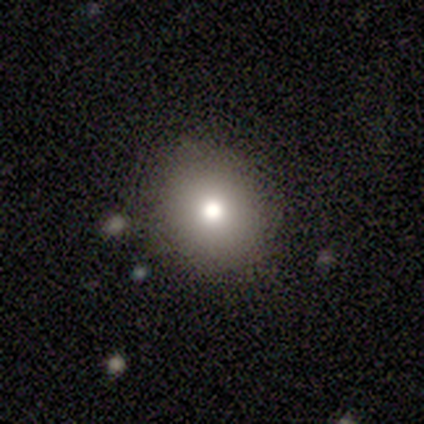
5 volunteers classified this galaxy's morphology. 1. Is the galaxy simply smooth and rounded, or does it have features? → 100% smooth, 0% featured or disk, 0% star or artifact.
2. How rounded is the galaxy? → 80% round, 20% in between, 0% cigar-shaped.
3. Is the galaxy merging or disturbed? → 80% none, 20% minor disturbance, 0% major disturbance, 0% merger.